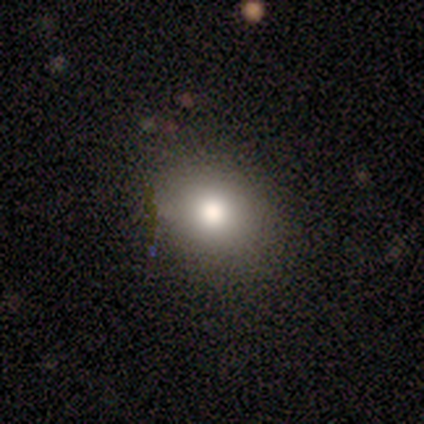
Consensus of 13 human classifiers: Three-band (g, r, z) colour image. It shows a smooth galaxy with no disk features (85%) that is in between round and cigar-shaped (64%). Merging: none (92%).